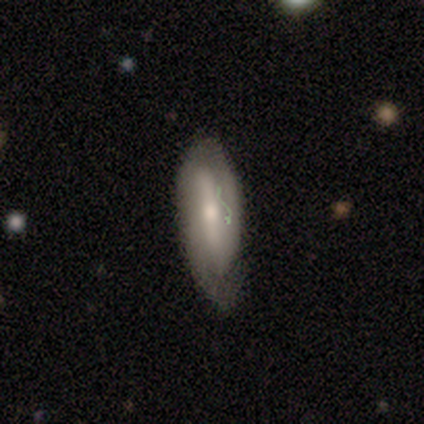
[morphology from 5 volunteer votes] Smooth or featured: featured or disk — 60% (smooth — 40%)
Edge-on disk: no — 67% (yes — 33%)
Bar: strong — 50% (tied with no — 50%)
Spiral arms: yes — 50% (tied with no — 50%)
Spiral winding: medium — 100%
Spiral arm count: 2 — 100%
Bulge size: moderate — 100%
Merging: none — 80% (major disturbance — 20%)